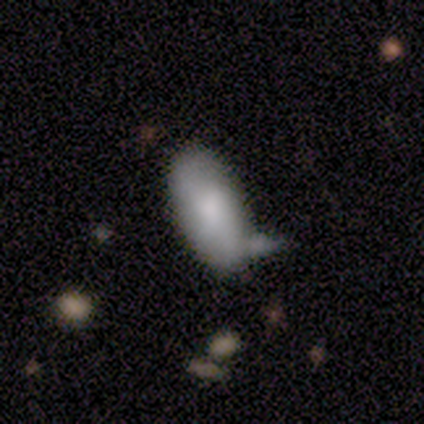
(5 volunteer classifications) Smooth or featured: smooth — 80% (star or artifact — 20%)
How rounded: in between — 100%
Merging: none — 50% (tied with merger — 50%)